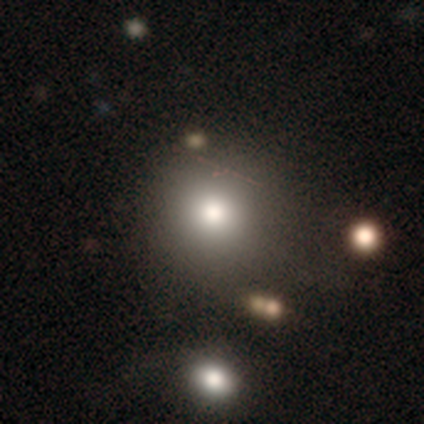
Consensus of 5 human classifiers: Q: Smooth or featured?
A: smooth (80%); runner-up: featured or disk (20%)
Q: How rounded?
A: round (75%); runner-up: in between (25%)
Q: Merging?
A: none (80%); runner-up: merger (20%)